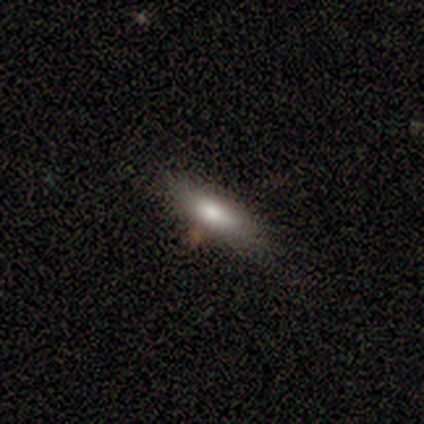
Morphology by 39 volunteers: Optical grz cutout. It shows a smooth galaxy with no disk features (77%) that is in between round and cigar-shaped (70%). Merging: none (74%).